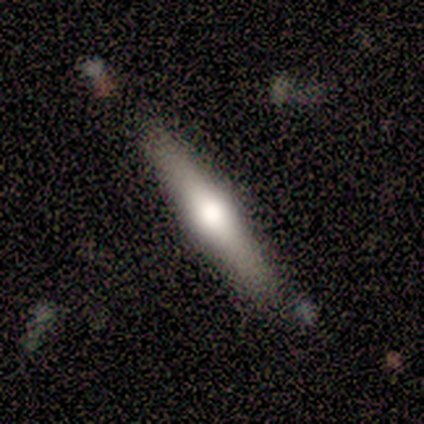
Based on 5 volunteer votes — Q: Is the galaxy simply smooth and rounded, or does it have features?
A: featured or disk — 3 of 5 (60%).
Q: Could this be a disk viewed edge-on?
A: yes — 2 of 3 (67%).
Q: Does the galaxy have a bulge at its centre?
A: rounded — 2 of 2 (100%).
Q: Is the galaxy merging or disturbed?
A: none — 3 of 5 (60%).